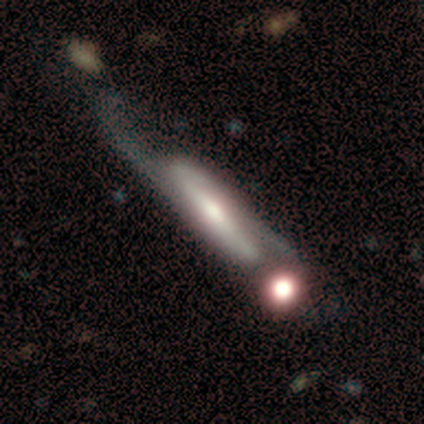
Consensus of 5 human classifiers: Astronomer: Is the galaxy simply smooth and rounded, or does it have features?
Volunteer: featured or disk — 100%.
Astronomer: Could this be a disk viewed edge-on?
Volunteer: no — 100%.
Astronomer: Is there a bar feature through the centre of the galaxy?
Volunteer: strong — 80%.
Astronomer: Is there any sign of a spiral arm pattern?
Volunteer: yes — 100%.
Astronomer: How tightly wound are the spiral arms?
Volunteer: loose — 60% (runner-up: medium, 40%).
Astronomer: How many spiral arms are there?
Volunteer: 2 — 100%.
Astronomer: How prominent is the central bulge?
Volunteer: large — 60%.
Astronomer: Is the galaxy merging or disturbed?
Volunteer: none — 60%.